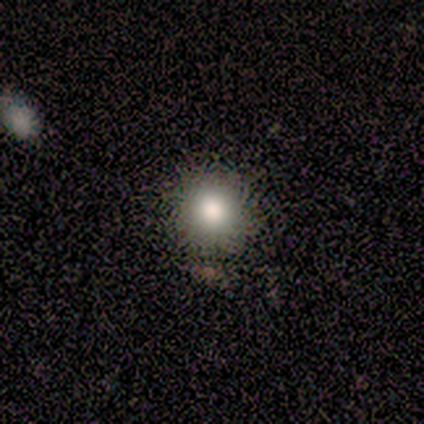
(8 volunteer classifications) smooth 100%, featured or disk 0%, star or artifact 0%. Down the decision tree: how rounded — round (88%); merging — none (88%).